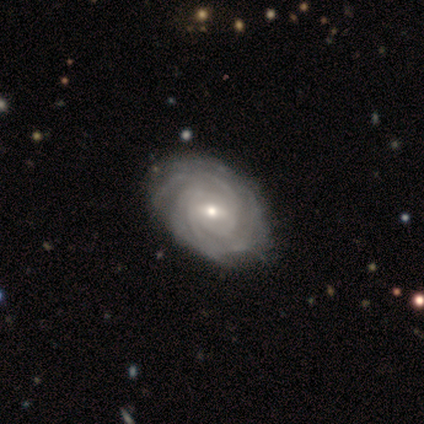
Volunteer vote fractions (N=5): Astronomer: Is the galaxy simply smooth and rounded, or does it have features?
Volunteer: featured or disk — 100%.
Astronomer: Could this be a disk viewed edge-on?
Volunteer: no — 100%.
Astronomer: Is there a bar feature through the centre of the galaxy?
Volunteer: weak — 60% (runner-up: strong, 40%).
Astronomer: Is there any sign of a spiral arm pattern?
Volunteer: yes — 100%.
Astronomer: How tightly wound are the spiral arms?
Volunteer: tight — 80%.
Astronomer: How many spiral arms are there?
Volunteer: can't tell — 60%.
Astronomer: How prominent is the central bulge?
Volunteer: moderate — 60% (runner-up: small, 40%).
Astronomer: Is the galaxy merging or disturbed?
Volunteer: none — 100%.